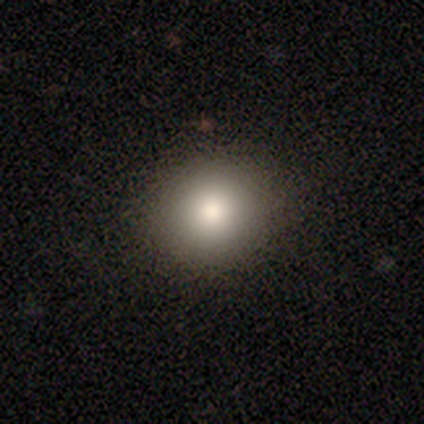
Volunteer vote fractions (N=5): smooth-or-featured: smooth: 100% | featured or disk: 0% | star or artifact: 0%
  how-rounded: round: 100% | in between: 0% | cigar-shaped: 0%
  merging: none: 100% | minor disturbance: 0% | major disturbance: 0% | merger: 0%